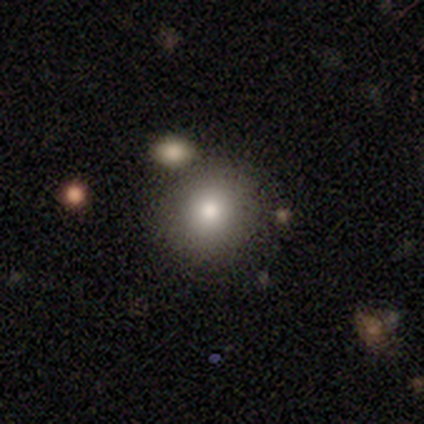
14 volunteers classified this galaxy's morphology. This is likely a smooth galaxy (71%). How rounded: clearly round (90%). Merging: clearly none (92%).